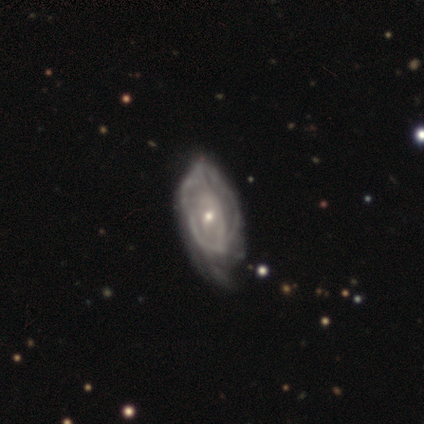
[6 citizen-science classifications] Smooth or featured? 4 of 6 (67%) said featured or disk. Edge-on disk? 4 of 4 (100%) said no. Bar? 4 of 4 (100%) said no. Spiral arms? 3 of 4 (75%) said no. Bulge size? 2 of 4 (50%, tied with small) said moderate. Merging? 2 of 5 (40%, tied with major disturbance) said none.